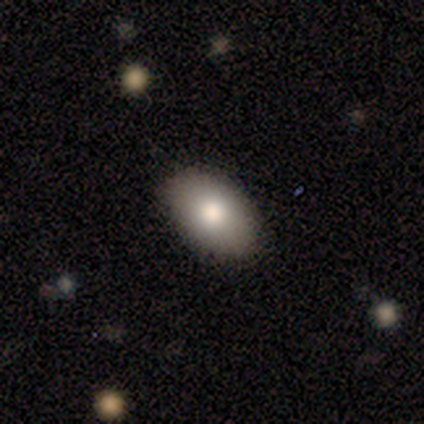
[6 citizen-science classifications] This appears to be a smooth galaxy with no disk features (50%) that is in between round and cigar-shaped (100%). Merging: none (100%).